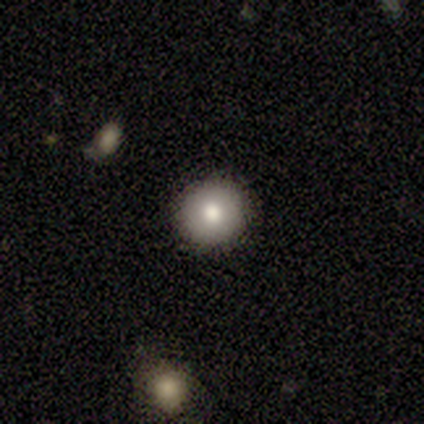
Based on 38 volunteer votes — Volunteers were most divided on "smooth or featured": smooth: 68%, star or artifact: 18%, featured or disk: 13%. More confident: how rounded — round (100%); merging — none (100%).